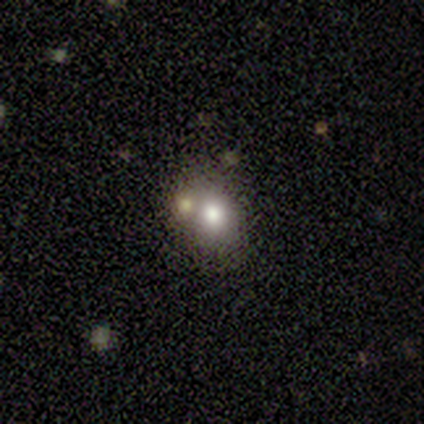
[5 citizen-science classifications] Smooth or featured? 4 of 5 (80%) said smooth. How rounded? 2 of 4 (50%, tied with in between) said round. Merging? 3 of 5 (60%) said merger.